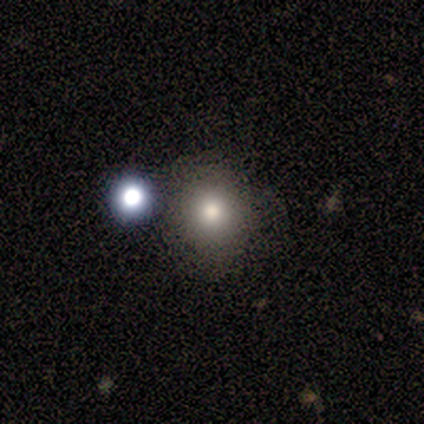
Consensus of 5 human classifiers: This is clearly a smooth galaxy (100%). How rounded: clearly round (80%). Merging: clearly none (100%).